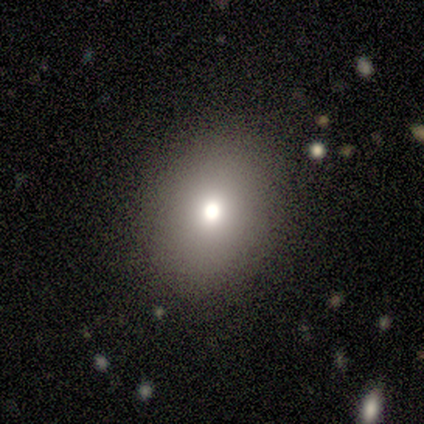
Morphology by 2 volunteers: Smooth or featured?
  - smooth: 100% *
  - featured or disk: 0%
  - star or artifact: 0%
How rounded?
  - round: 100% *
  - in between: 0%
  - cigar-shaped: 0%
Merging?
  - none: 100% *
  - minor disturbance: 0%
  - major disturbance: 0%
  - merger: 0%